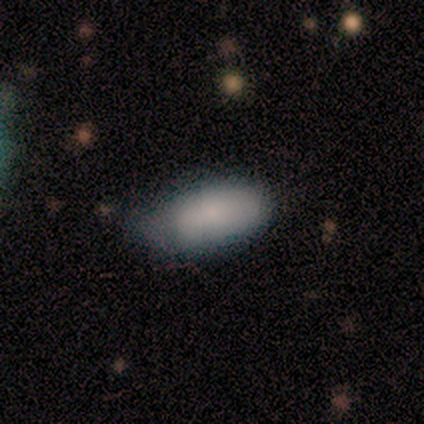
smooth-or-featured: smooth: 100% | featured or disk: 0% | star or artifact: 0%
  how-rounded: in between: 67% | cigar-shaped: 33% | round: 0%
  merging: minor disturbance: 67% | none: 33% | major disturbance: 0% | merger: 0%